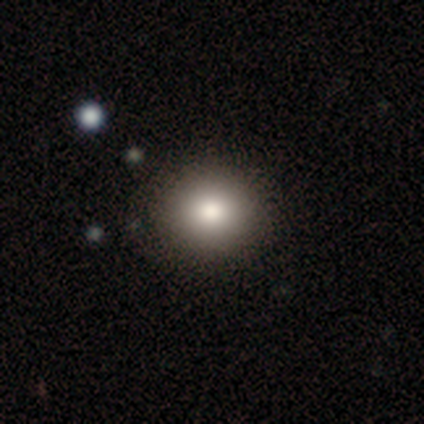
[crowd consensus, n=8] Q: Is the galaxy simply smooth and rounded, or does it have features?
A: smooth — 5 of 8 (62%).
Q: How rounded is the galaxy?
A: round — 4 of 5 (80%).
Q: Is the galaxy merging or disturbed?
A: none — 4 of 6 (67%).